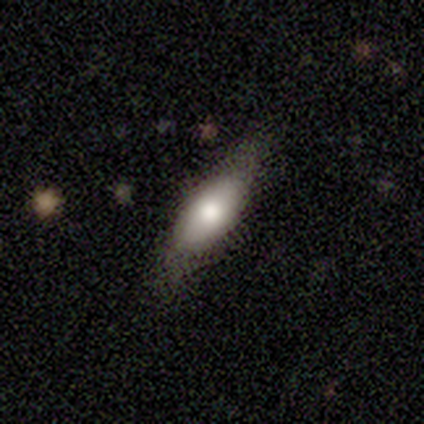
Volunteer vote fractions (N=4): Smooth or featured? 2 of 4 (50%, tied with featured or disk) said smooth. How rounded? 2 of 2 (100%) said in between. Merging? 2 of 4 (50%, tied with minor disturbance) said none.